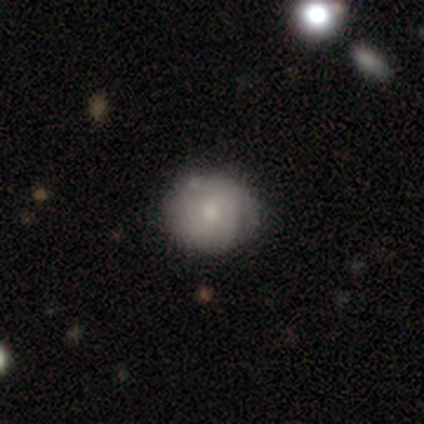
Volunteers were most divided on "smooth or featured": smooth: 57%, featured or disk: 38%, star or artifact: 5%. Remaining: how rounded — round (95%); merging — none (43%).